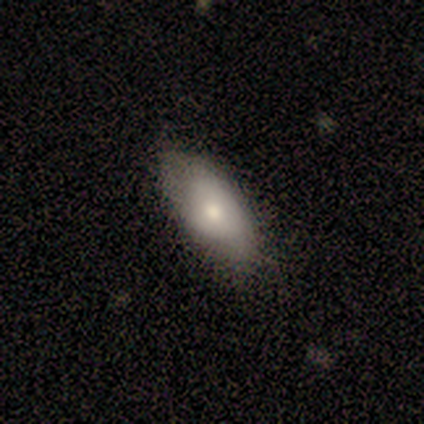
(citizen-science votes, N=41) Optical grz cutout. It shows a smooth galaxy with no disk features (76%) that is in between round and cigar-shaped (81%). Merging: none (55%).